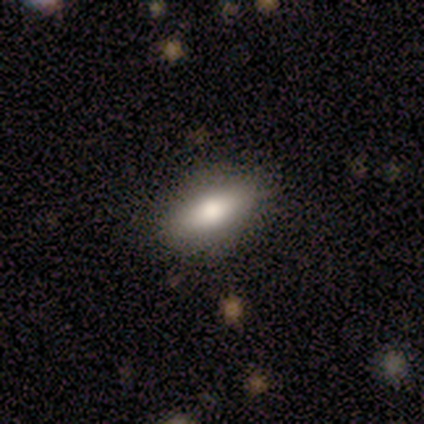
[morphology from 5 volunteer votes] smooth_or_featured: smooth (p=1.00)
how_rounded: in between (p=1.00)
merging: none (p=0.80) [alt: minor disturbance p=0.20]